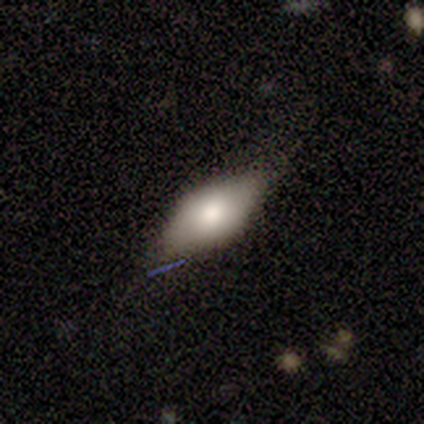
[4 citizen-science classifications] Morphology: type=smooth (75%); roundness=in between (67%); merging=none (75%).